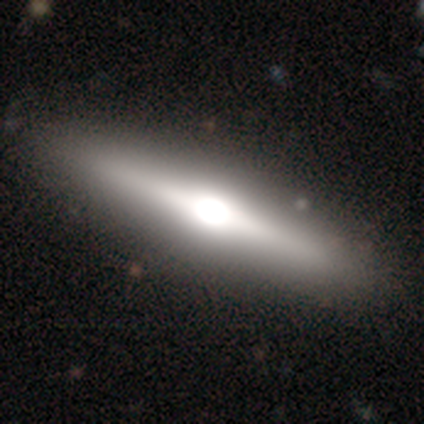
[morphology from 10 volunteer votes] A featured or disk galaxy (90%) viewed edge-on (89%) with a rounded central bulge (88%). Merging: none (100%).